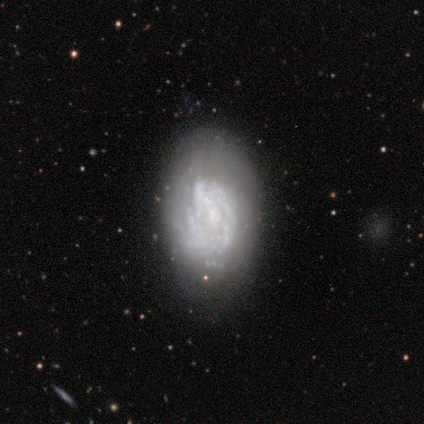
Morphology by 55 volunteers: Overall: featured or disk (76%). Edge-on disk: no (100%). Bar: no (86%). Spiral arms: yes (52%; no 48%). Spiral arm count: can't tell (68%). Spiral winding: tight (68%). Bulge size: none (52%; small 21%). Merging: none (60%; minor disturbance 28%).